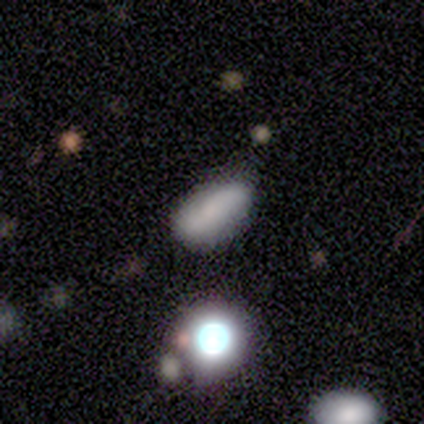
Smooth or featured?
  - smooth: 60% *
  - featured or disk: 20%
  - star or artifact: 20%
How rounded?
  - in between: 67% *
  - cigar-shaped: 33%
  - round: 0%
Merging?
  - none: 100% *
  - minor disturbance: 0%
  - major disturbance: 0%
  - merger: 0%